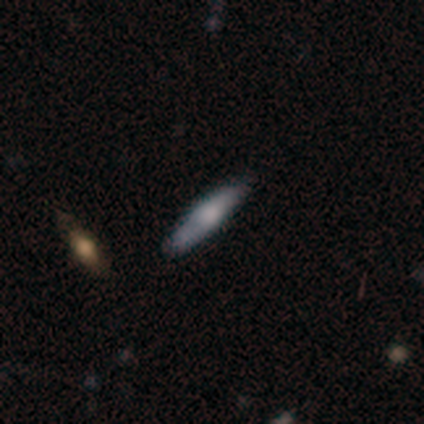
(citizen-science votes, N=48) Volunteers were most divided on "smooth or featured": smooth: 48%, featured or disk: 46%, star or artifact: 6%. More confident: merging — none (89%); how rounded — cigar-shaped (87%).